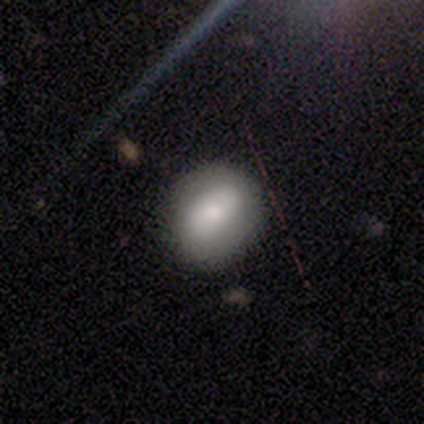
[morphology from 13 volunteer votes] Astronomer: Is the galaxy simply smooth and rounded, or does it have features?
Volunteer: smooth — 77%.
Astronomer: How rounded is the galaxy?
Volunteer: in between — 70%.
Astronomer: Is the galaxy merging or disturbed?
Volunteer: none — 100%.